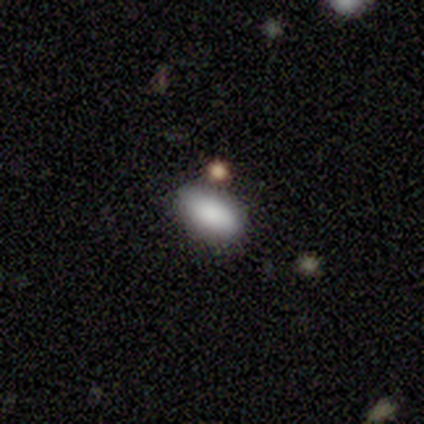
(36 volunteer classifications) This appears to be a smooth galaxy with no disk features (86%) that is in between round and cigar-shaped (87%). Merging: none (70%).